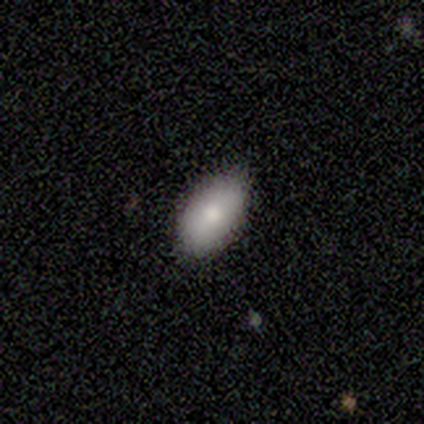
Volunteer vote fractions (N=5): smooth 100%, featured or disk 0%, star or artifact 0%. Down the decision tree: how rounded — in between (80%); merging — none (100%).